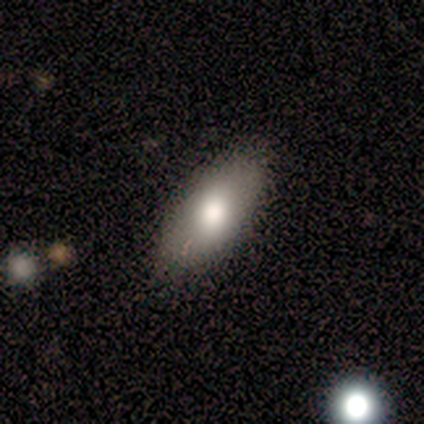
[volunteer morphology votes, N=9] Overall: smooth (78%). How rounded: in between (100%). Merging: none (88%).